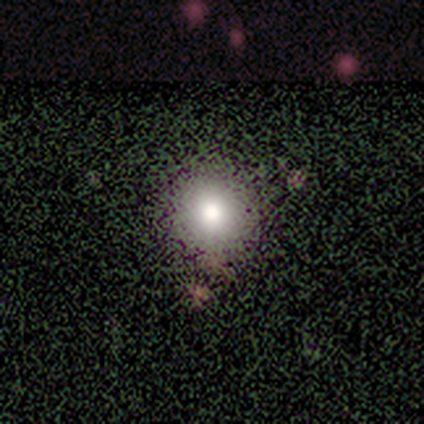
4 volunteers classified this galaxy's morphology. type=smooth (100%); roundness=round (100%); merging=none (100%).